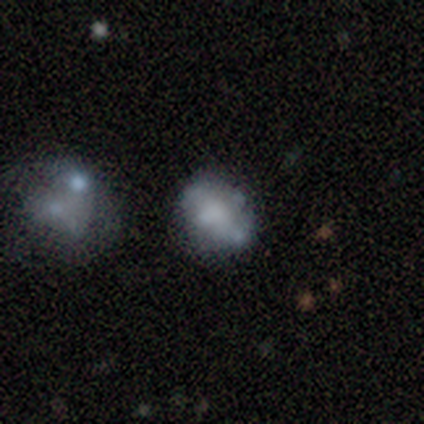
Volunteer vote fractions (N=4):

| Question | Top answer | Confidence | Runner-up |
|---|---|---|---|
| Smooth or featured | smooth | 75% | featured or disk (25%) |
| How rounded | in between | 67% | round (33%) |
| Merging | none | 75% | minor disturbance (25%) |